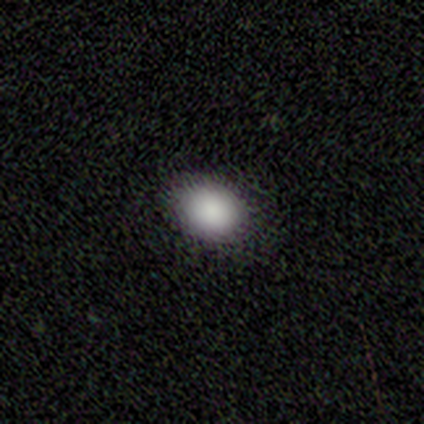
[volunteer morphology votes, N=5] smooth-or-featured: smooth: 100% | featured or disk: 0% | star or artifact: 0%
  how-rounded: in between: 80% | round: 20% | cigar-shaped: 0%
  merging: none: 80% | minor disturbance: 20% | major disturbance: 0% | merger: 0%